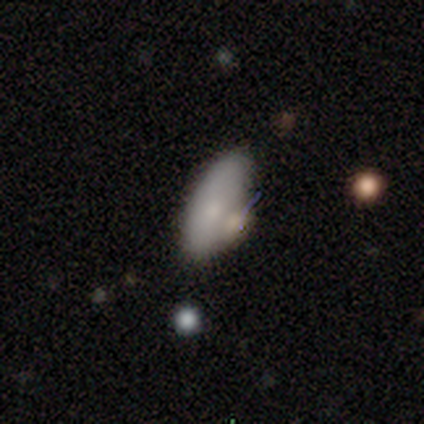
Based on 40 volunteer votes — smooth 78%, featured or disk 15%, star or artifact 8%. Down the decision tree: how rounded — in between (81%); merging — none (49%).